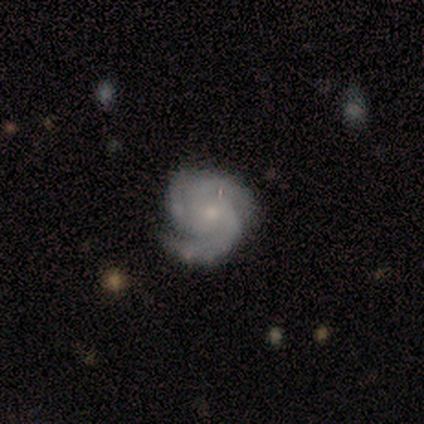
This appears to be a featured or disk galaxy (88%) with no bar (86%), 3 (71%) tight (57%) spiral arms (100%) and a small central bulge (86%). Merging: none (71%).